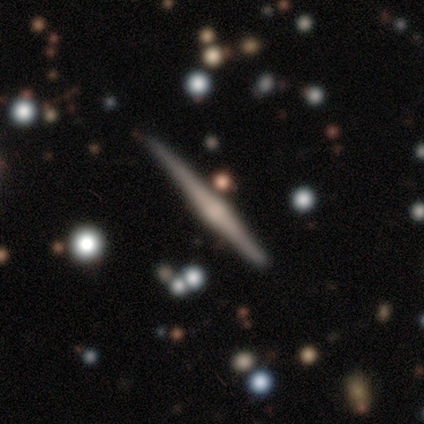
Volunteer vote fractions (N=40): This appears to be a featured or disk galaxy (78%) viewed edge-on (100%) with a rounded central bulge (74%). Merging: none (75%).